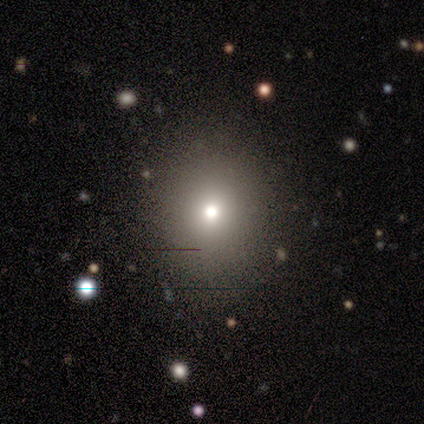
Smooth or featured? 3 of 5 (60%) said smooth. How rounded? 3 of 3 (100%) said round. Merging? 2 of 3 (67%) said none.